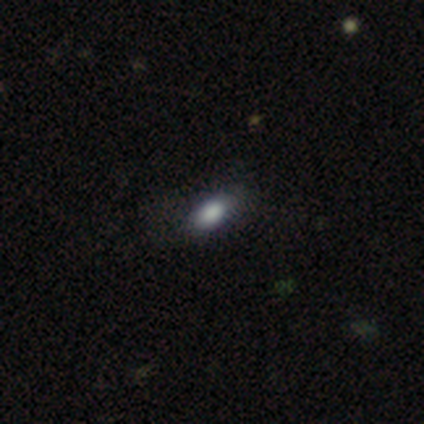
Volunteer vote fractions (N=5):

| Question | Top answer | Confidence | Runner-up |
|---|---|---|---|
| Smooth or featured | smooth | 100% | — |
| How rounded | in between | 80% | round (20%) |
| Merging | none | 60% | minor disturbance (40%) |